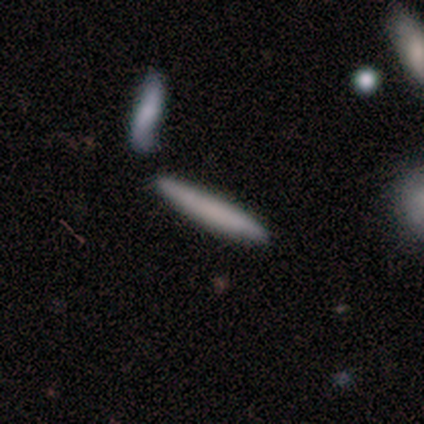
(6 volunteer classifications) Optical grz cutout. It shows a smooth galaxy with no disk features (83%) that is cigar-shaped (100%). Merging: none (83%).